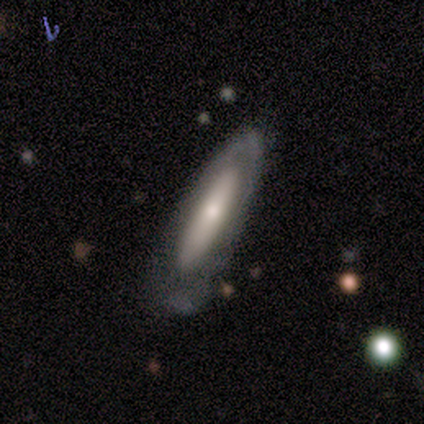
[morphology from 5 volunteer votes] Volunteers were most divided on "smooth or featured": smooth: 60%, featured or disk: 40%, star or artifact: 0%. More confident: merging — none (80%); how rounded — in between (67%).